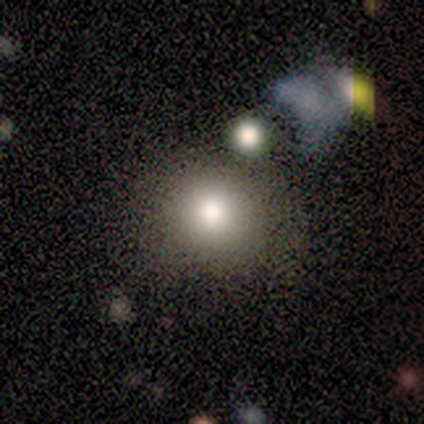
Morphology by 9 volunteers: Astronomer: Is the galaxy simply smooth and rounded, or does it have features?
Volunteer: smooth — 67%.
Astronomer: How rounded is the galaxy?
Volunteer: round — 100%.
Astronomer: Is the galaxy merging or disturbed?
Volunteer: none — 75%.